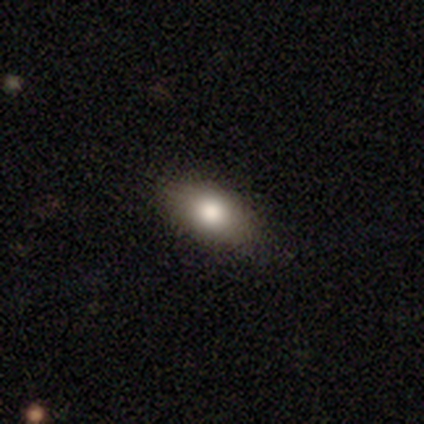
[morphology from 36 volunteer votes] Volunteers were most divided on "smooth or featured": smooth: 75%, featured or disk: 19%, star or artifact: 6%. More confident: merging — none (91%); how rounded — in between (81%).